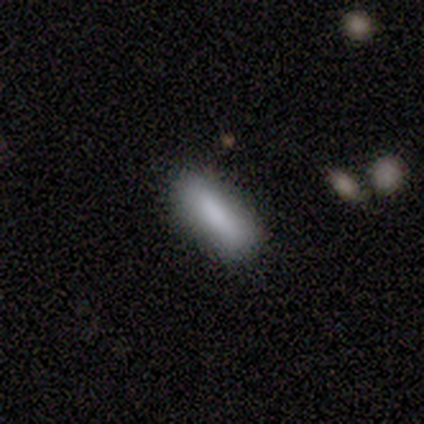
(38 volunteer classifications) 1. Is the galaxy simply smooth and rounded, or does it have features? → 79% smooth, 21% star or artifact, 0% featured or disk.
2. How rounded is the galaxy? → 60% in between, 33% cigar-shaped, 7% round.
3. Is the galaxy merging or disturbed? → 90% none, 7% merger, 3% minor disturbance, 0% major disturbance.